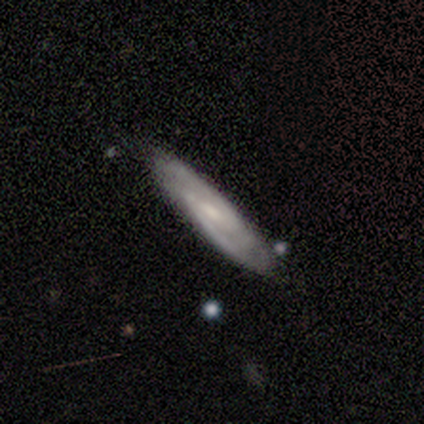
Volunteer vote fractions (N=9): featured or disk 67%, smooth 33%, star or artifact 0%. Down the decision tree: edge-on disk — yes (50%, tied with no); edge-on bulge — none (67%); merging — none (89%).